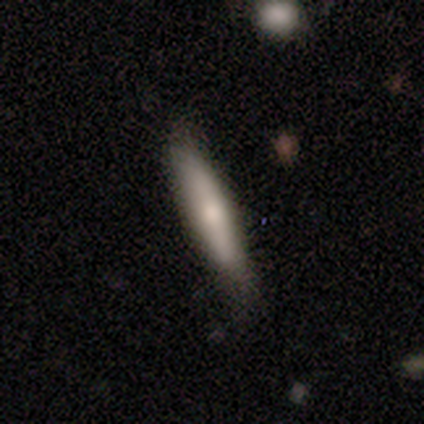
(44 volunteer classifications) Smooth or featured? 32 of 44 (73%) said smooth. How rounded? 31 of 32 (97%) said cigar-shaped. Merging? 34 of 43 (79%) said none.